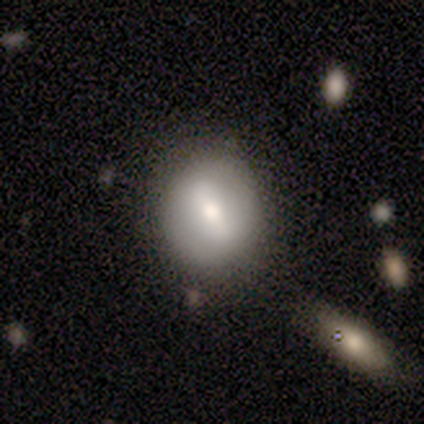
smooth 60%, featured or disk 40%, star or artifact 0%. Down the decision tree: how rounded — round (100%); merging — none (80%).